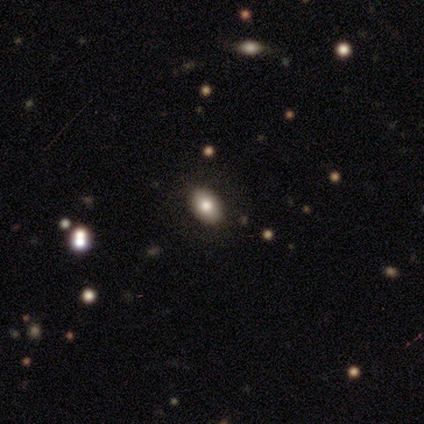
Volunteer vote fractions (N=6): smooth_or_featured: smooth (p=0.83) [alt: star or artifact p=0.17]
how_rounded: in between (p=0.80) [alt: round p=0.20]
merging: none (p=1.00)